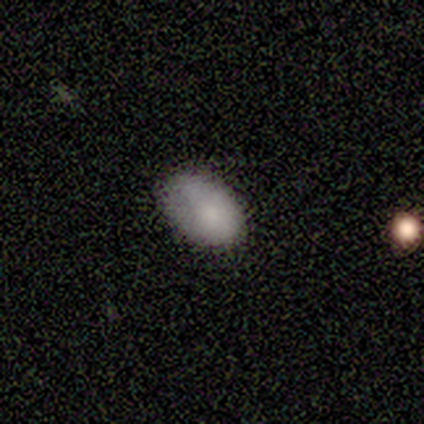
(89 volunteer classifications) This is clearly a smooth galaxy (82%). How rounded: clearly in between (95%). Merging: possibly none (59%).